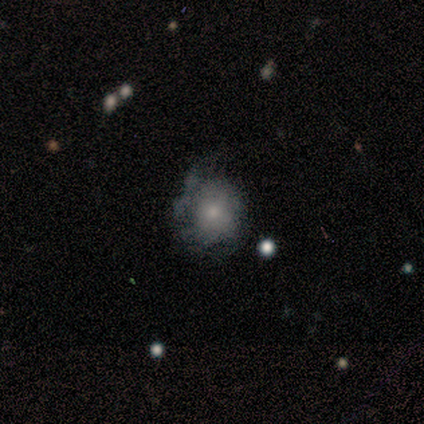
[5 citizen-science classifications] Smooth or featured?
  - featured or disk: 60% *
  - smooth: 40%
  - star or artifact: 0%
Edge-on disk?
  - no: 100% *
  - yes: 0%
Bar?
  - no: 100% *
  - strong: 0%
  - weak: 0%
Spiral arms?
  - no: 67% *
  - yes: 33%
Bulge size?
  - small: 100% *
  - dominant: 0%
  - large: 0%
  - moderate: 0%
  - none: 0%
Merging?
  - none: 40% * (tied)
  - minor disturbance: 40% * (tied)
  - major disturbance: 20%
  - merger: 0%